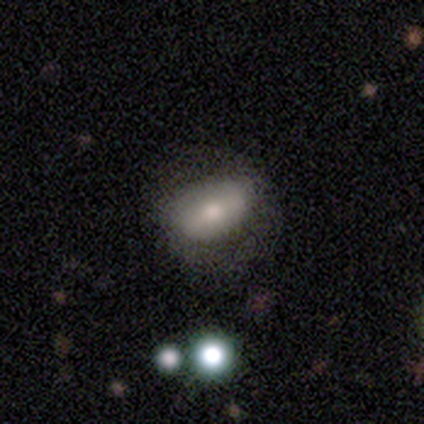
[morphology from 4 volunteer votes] Smooth or featured?
  - featured or disk: 50% *
  - smooth: 25%
  - star or artifact: 25%
Edge-on disk?
  - no: 100% *
  - yes: 0%
Bar?
  - no: 100% *
  - strong: 0%
  - weak: 0%
Spiral arms?
  - no: 100% *
  - yes: 0%
Bulge size?
  - dominant: 50% * (tied)
  - small: 50% * (tied)
  - large: 0%
  - moderate: 0%
  - none: 0%
Merging?
  - none: 67% *
  - major disturbance: 33%
  - minor disturbance: 0%
  - merger: 0%